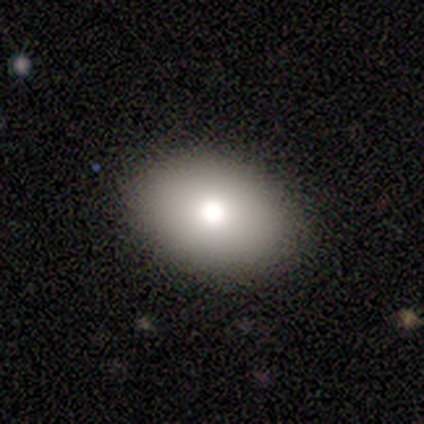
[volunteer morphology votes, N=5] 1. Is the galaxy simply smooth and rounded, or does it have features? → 80% smooth, 20% star or artifact, 0% featured or disk.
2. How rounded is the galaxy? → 100% in between, 0% round, 0% cigar-shaped.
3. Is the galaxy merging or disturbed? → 100% none, 0% minor disturbance, 0% major disturbance, 0% merger.